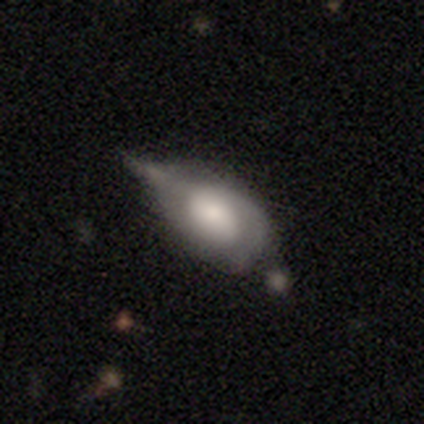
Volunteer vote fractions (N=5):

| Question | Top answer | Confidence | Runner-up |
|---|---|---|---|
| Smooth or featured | smooth | 60% | featured or disk (40%) |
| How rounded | in between | 100% | — |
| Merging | minor disturbance | 60% | major disturbance (40%) |